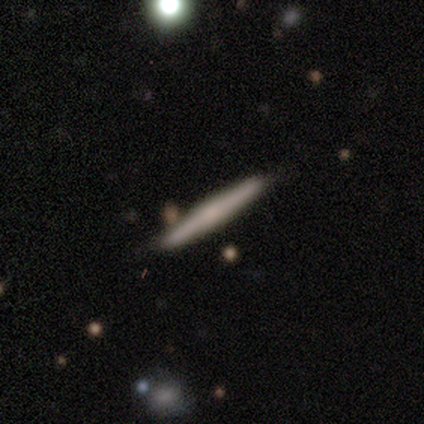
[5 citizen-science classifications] A featured or disk galaxy (80%) viewed edge-on (100%) with a rounded central bulge (50%).

Vote fractions:
- Smooth or featured? featured or disk: 80% / smooth: 20% / star or artifact: 0%
- Edge-on disk? yes: 100% / no: 0%
- Edge-on bulge? rounded: 50% / boxy: 25% / none: 25%
- Merging? none: 80% / minor disturbance: 20% / major disturbance: 0% / merger: 0%